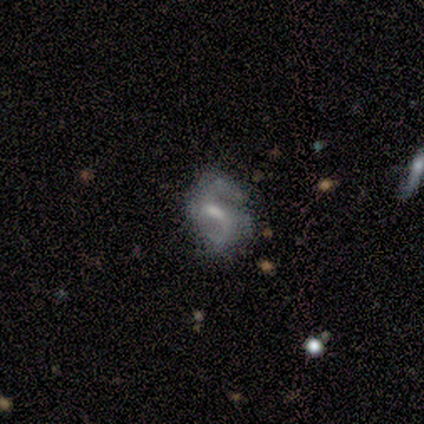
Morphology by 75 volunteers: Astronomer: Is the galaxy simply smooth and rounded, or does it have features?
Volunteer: featured or disk — 83%.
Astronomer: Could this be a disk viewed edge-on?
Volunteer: no — 98%.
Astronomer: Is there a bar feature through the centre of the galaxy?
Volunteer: weak — 61%.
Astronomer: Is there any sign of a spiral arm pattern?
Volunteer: yes — 97%.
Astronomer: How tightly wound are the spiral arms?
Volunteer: medium — 54% (runner-up: loose, 34%).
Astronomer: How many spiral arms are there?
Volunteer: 2 — 90%.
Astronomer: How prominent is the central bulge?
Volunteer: moderate — 46% (runner-up: small, 43%).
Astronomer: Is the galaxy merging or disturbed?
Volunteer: none — 54%.